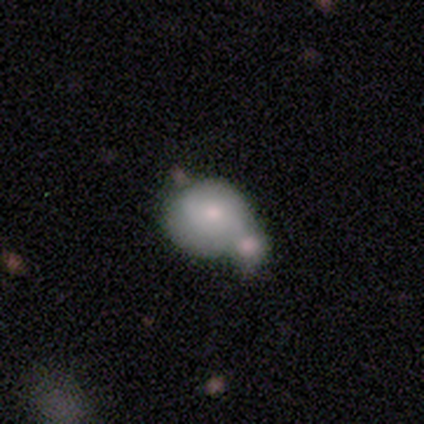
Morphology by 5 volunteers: Overall: smooth (100%). How rounded: round (80%). Merging: merger (80%).